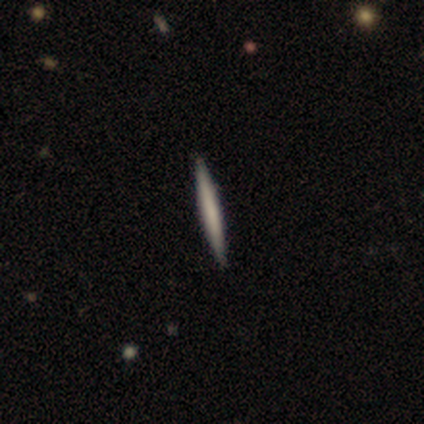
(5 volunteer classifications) smooth 80%, featured or disk 20%, star or artifact 0%. Down the decision tree: how rounded — cigar-shaped (100%); merging — none (100%).